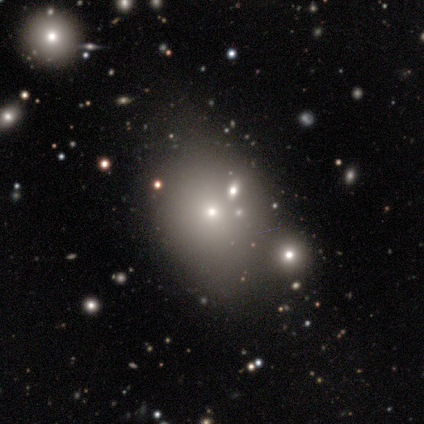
Volunteers were most divided on "how rounded": in between: 67%, round: 33%, cigar-shaped: 0%. More confident: smooth or featured — smooth (75%); merging — none (67%).